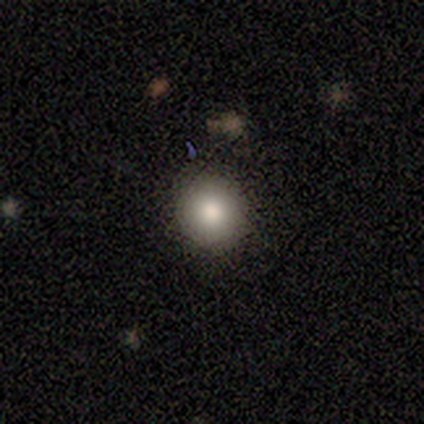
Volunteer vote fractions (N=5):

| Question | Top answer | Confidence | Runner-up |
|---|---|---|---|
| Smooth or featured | smooth | 80% | featured or disk (20%) |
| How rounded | round | 100% | — |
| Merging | none | 80% | minor disturbance (20%) |